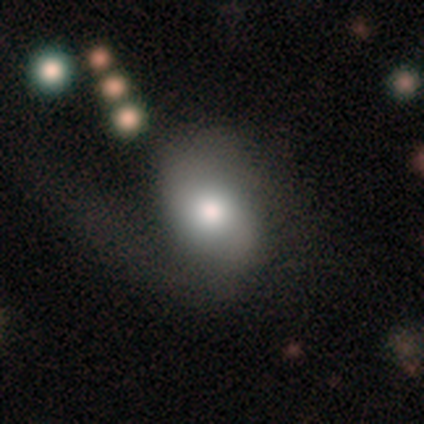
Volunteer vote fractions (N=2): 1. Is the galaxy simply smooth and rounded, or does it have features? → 50% smooth (tied), 50% featured or disk (tied), 0% star or artifact.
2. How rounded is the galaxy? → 100% in between, 0% round, 0% cigar-shaped.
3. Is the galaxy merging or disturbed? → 50% none (tied), 50% minor disturbance (tied), 0% major disturbance, 0% merger.